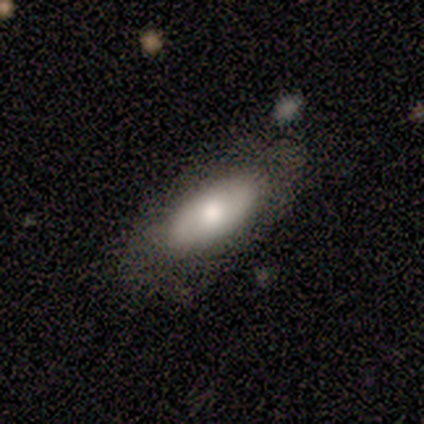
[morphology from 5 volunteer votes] This appears to be a smooth galaxy with no disk features (80%) that is in between round and cigar-shaped (100%). Merging: none (60%).